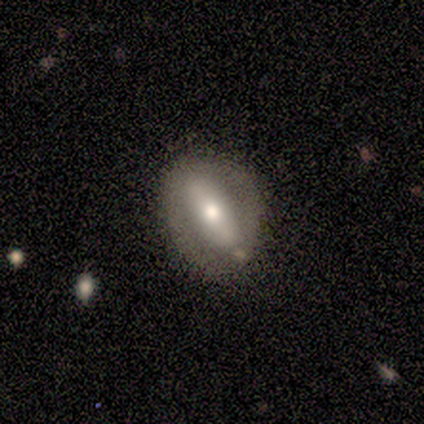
Volunteers were most divided on "bar" (3-way tie): strong: 33%, weak: 33%, no: 33%. More confident: spiral arms — no (100%); smooth or featured — featured or disk (80%); merging — none (80%); edge-on disk — no (75%); bulge size — moderate (67%).